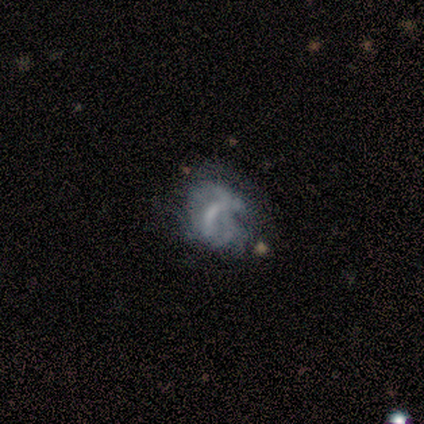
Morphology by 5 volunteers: Volunteers were most divided on "bulge size" (2-way tie): moderate: 50%, none: 50%, dominant: 0%, large: 0%, small: 0%. More confident: edge-on disk — no (100%); smooth or featured — featured or disk (80%); bar — weak (75%); spiral arms — yes (75%); spiral winding — loose (67%); spiral arm count — can't tell (67%); merging — none (60%).